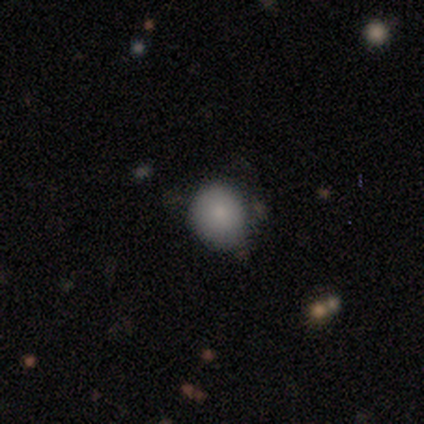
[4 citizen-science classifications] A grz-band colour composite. It shows a smooth galaxy with no disk features (50%) that is round (100%). Merging: none (33%, tied with minor disturbance and major disturbance).